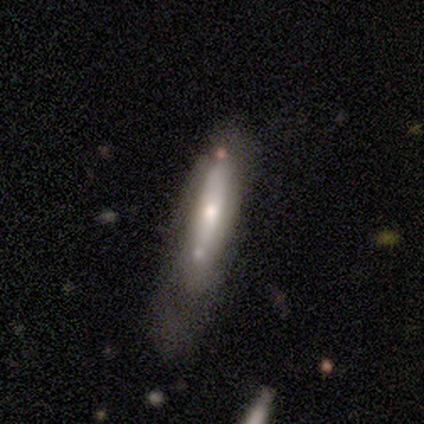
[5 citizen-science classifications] This is likely a smooth galaxy (60%). How rounded: likely cigar-shaped (67%). Merging: likely minor disturbance (67%).